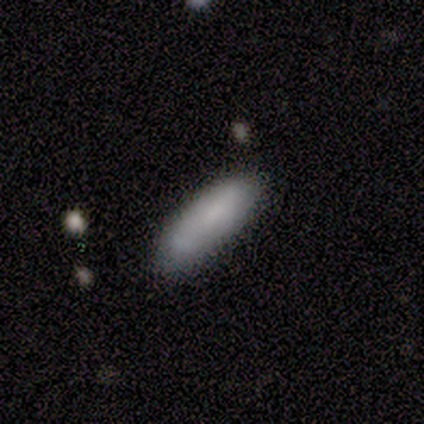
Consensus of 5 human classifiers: Smooth or featured? 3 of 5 (60%) said smooth. How rounded? 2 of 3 (67%) said cigar-shaped. Merging? 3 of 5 (60%) said merger.